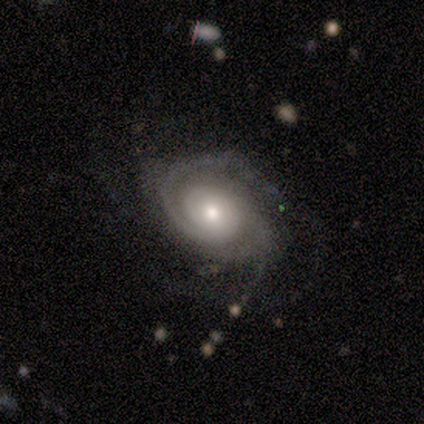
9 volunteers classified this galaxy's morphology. featured or disk 100%, smooth 0%, star or artifact 0%. Down the decision tree: edge-on disk — no (100%); bar — no (89%); spiral arms — yes (100%); spiral arm count — 2 (33%); spiral winding — tight (56%); bulge size — moderate (78%); merging — none (67%).